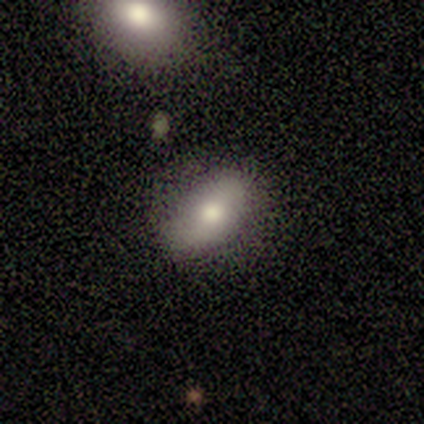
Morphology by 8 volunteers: Volunteers were most divided on "merging" (2-way tie): none: 50%, minor disturbance: 50%, major disturbance: 0%, merger: 0%. More confident: smooth or featured — smooth (100%); how rounded — in between (100%).